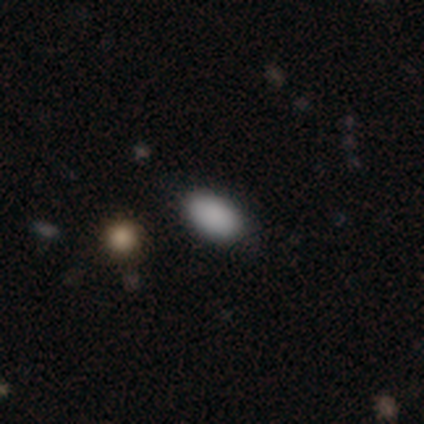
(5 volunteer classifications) Overall: smooth (100%). How rounded: in between (100%). Merging: none (80%).